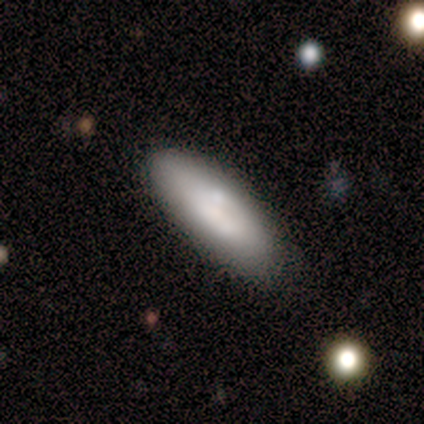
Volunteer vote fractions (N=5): This is likely a smooth galaxy (60%). How rounded: likely in between (67%). Merging: clearly none (100%).